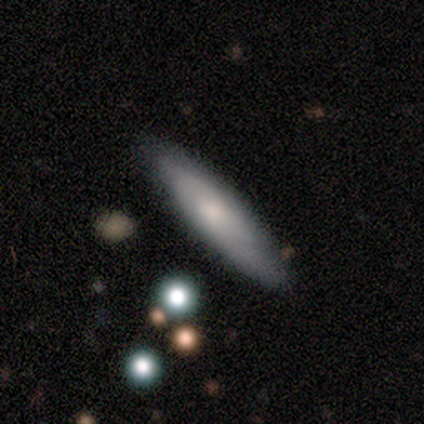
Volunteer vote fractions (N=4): smooth 75%, featured or disk 25%, star or artifact 0%. Down the decision tree: how rounded — cigar-shaped (100%); merging — none (100%).